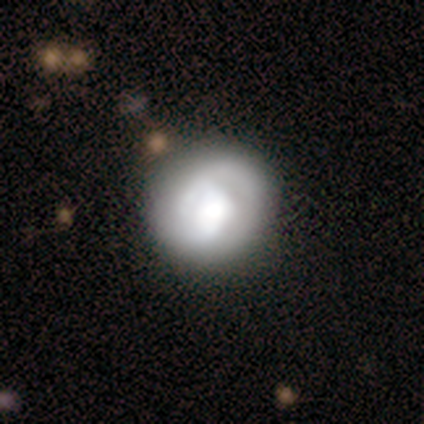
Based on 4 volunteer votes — This is possibly a featured or disk galaxy (50%). It is clearly not viewed edge-on (100%). Bar: clearly no (100%). Spiral arm pattern: possibly yes (50%, tied with no). Spiral arm count: clearly 1 (100%). Spiral winding: clearly tight (100%). Central bulge: possibly dominant (50%, tied with large). Merging: likely none (67%).